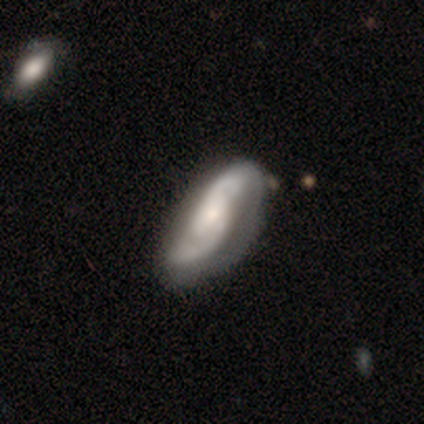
smooth-or-featured: featured or disk: 80% | smooth: 20% | star or artifact: 0%
  disk-edge-on: no: 75% | yes: 25%
    bar: weak: 67% | no: 33% | strong: 0%
    has-spiral-arms: yes: 100% | no: 0%
      spiral-winding: loose: 67% | tight: 33% | medium: 0%
      spiral-arm-count: 2: 67% | 3: 33% | 1: 0% | 4: 0% | more than 4: 0% | can't tell: 0%
    bulge-size: small: 67% | large: 33% | dominant: 0% | moderate: 0% | none: 0%
  merging: none: 60% | minor disturbance: 40% | major disturbance: 0% | merger: 0%